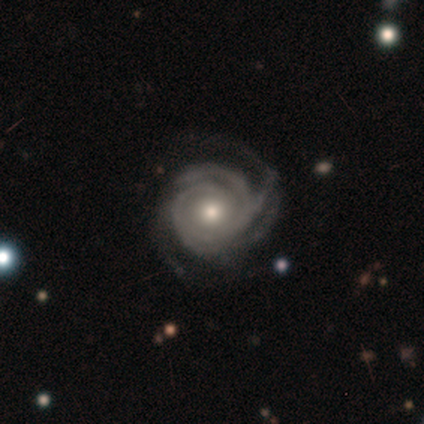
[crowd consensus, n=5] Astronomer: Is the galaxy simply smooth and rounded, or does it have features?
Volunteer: featured or disk — 100%.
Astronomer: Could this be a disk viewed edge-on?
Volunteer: no — 100%.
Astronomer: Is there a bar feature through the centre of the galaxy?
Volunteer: no — 80%.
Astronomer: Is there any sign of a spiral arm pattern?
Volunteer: yes — 100%.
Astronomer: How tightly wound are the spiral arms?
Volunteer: tight — 80%.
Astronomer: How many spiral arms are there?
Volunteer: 4 — 60%.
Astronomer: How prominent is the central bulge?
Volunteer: small — 60%.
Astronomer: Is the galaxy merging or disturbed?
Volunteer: none — 80%.